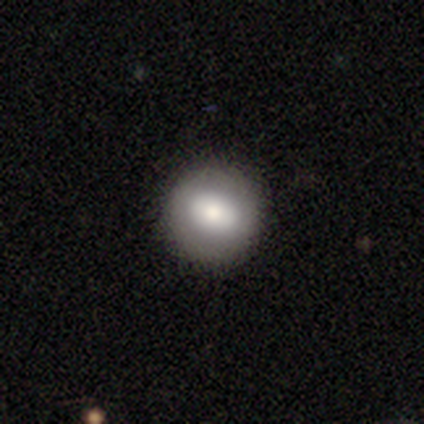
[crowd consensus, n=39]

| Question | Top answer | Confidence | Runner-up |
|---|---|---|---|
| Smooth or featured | smooth | 69% | featured or disk (23%) |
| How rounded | round | 96% | in between (4%) |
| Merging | none | 97% | major disturbance (3%) |